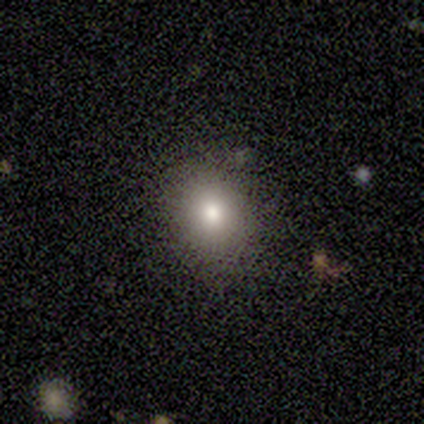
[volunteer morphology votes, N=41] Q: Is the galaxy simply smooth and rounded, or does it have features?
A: smooth — 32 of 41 (78%).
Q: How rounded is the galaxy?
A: round — 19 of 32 (59%).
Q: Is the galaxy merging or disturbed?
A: none — 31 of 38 (82%).